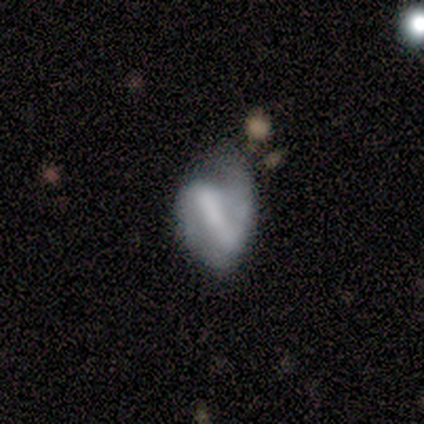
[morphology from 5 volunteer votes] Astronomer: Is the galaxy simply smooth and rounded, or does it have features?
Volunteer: smooth — 60% (runner-up: featured or disk, 40%).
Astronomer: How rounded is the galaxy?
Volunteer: in between — 100%.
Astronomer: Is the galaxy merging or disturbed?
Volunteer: minor disturbance — 60% (runner-up: none, 40%).